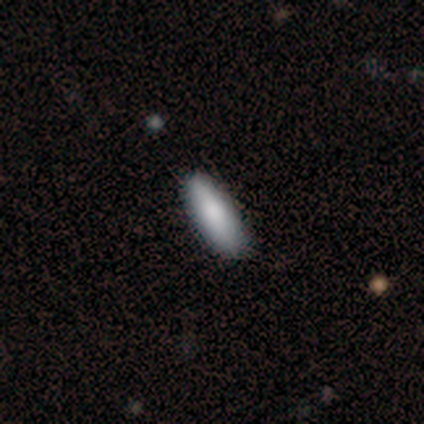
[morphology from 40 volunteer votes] This is clearly a smooth galaxy (85%). How rounded: likely in between (68%). Merging: possibly none (51%).